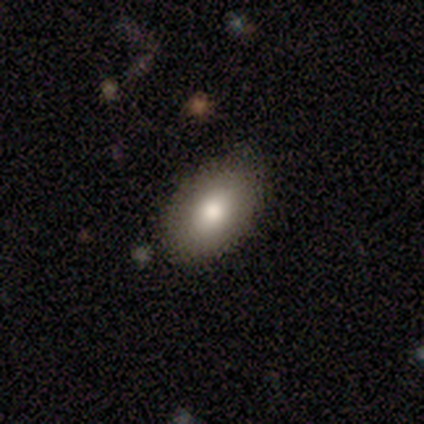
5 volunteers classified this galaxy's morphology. type=smooth (100%); roundness=in between (100%); merging=none (80%).